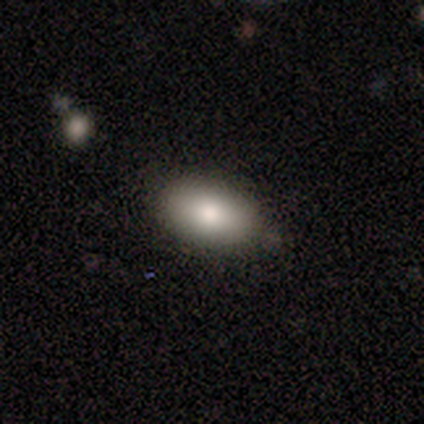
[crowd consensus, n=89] Overall: smooth (85%). How rounded: in between (92%). Merging: none (82%).